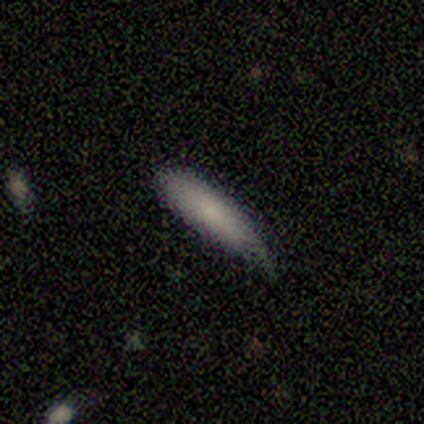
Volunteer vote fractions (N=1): Consensus on every question: smooth or featured — smooth (100%); how rounded — cigar-shaped (100%); merging — minor disturbance (100%).